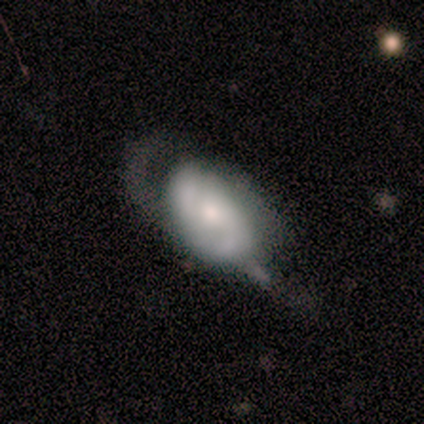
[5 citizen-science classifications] smooth-or-featured: featured or disk: 60% | smooth: 40% | star or artifact: 0%
  disk-edge-on: no: 100% | yes: 0%
    bar: no: 100% | strong: 0% | weak: 0%
    has-spiral-arms: yes: 100% | no: 0%
      spiral-winding: loose: 67% | medium: 33% | tight: 0%
      spiral-arm-count: 2: 100% | 1: 0% | 3: 0% | 4: 0% | more than 4: 0% | can't tell: 0%
    bulge-size: moderate: 100% | dominant: 0% | large: 0% | small: 0% | none: 0%
  merging: major disturbance: 40% | none: 20% | minor disturbance: 20% | merger: 20%